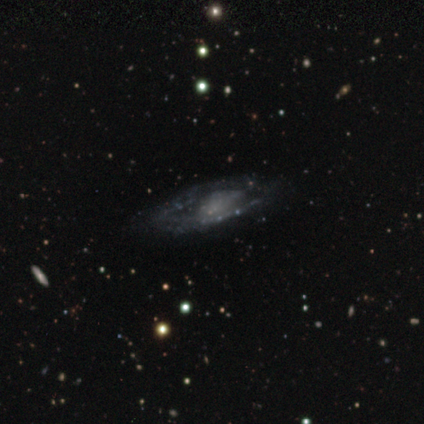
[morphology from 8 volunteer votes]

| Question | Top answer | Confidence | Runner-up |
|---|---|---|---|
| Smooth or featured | featured or disk | 100% | — |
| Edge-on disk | no | 75% | yes (25%) |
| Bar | no | 67% | weak (33%) |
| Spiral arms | yes | 83% | no (17%) |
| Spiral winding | tight | 80% | medium (20%) |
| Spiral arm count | can't tell | 60% | 1 (20%) |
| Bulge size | moderate | 33% | tied: none (33%) |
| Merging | none | 62% | minor disturbance (25%) |